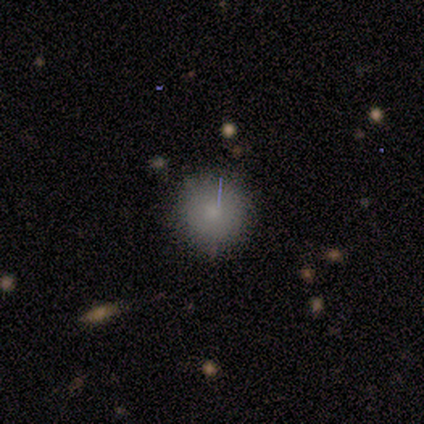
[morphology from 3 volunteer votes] Smooth or featured? smooth (100%)
How rounded? round (100%)
Merging? none (100%)